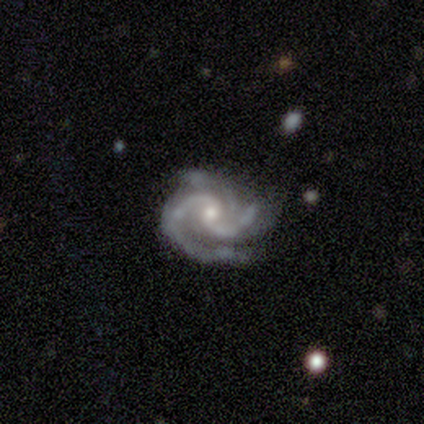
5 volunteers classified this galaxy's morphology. smooth_or_featured: featured or disk (p=1.00)
disk_edge_on: no (p=1.00)
bar: no (p=0.60) [alt: weak p=0.40]
has_spiral_arms: yes (p=1.00)
spiral_winding: medium (p=0.60) [alt: tight p=0.40]
spiral_arm_count: 3 (p=0.60) [alt: 2 p=0.20]
bulge_size: small (p=0.80) [alt: moderate p=0.20]
merging: none (p=0.60) [alt: minor disturbance p=0.40]